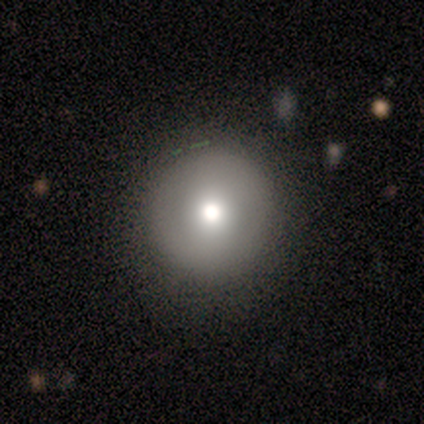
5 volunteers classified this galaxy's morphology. Overall: smooth (80%). How rounded: round (100%). Merging: none (60%; minor disturbance 40%).